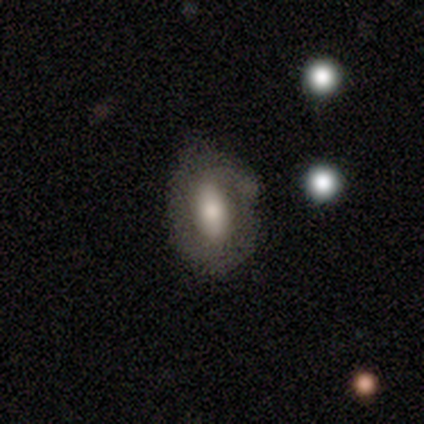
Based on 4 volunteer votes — Q: Smooth or featured?
A: smooth (50%); runner-up: featured or disk (25%)
Q: How rounded?
A: in between (100%)
Q: Merging?
A: none (67%); runner-up: minor disturbance (33%)